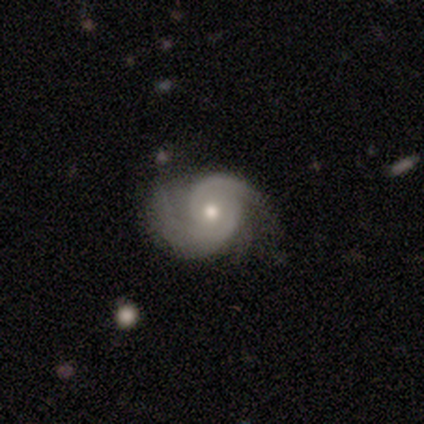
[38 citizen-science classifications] This is clearly a featured or disk galaxy (92%). It is clearly not viewed edge-on (100%). Bar: likely no (74%). Spiral arm pattern: clearly yes (94%). Spiral arm count: clearly 2 (82%). Spiral winding: possibly medium (58%). Central bulge: likely moderate (66%). Merging: possibly none (51%).